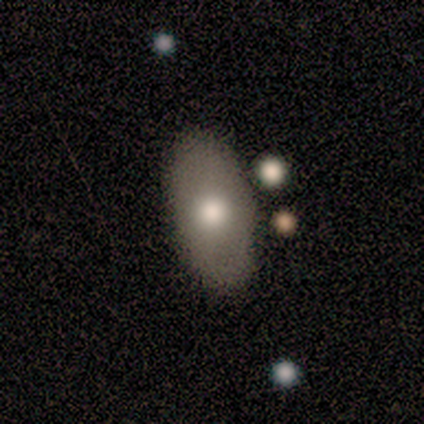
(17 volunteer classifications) smooth_or_featured: smooth (p=0.71) [alt: featured or disk p=0.24]
how_rounded: in between (p=1.00)
merging: none (p=0.81) [alt: major disturbance p=0.12]